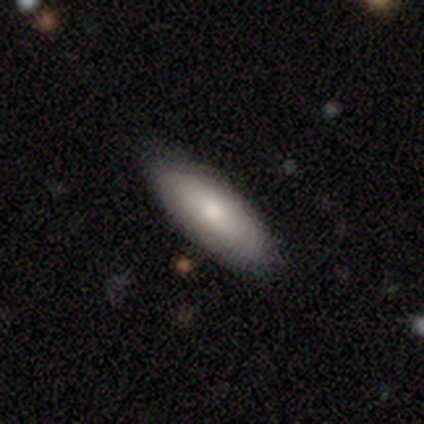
Smooth or featured?
  - smooth: 84% *
  - featured or disk: 13%
  - star or artifact: 3%
How rounded?
  - in between: 81% *
  - cigar-shaped: 19%
  - round: 0%
Merging?
  - none: 84% *
  - minor disturbance: 14%
  - major disturbance: 3%
  - merger: 0%